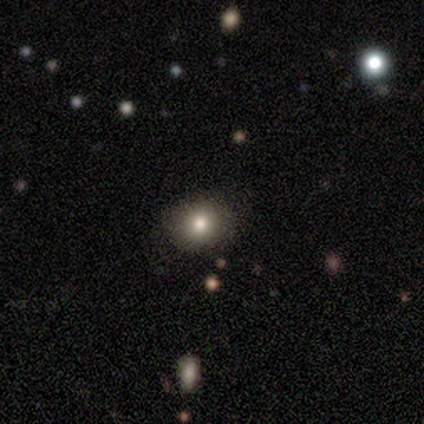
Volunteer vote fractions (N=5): Overall: smooth (80%). How rounded: round (100%). Merging: none (100%).